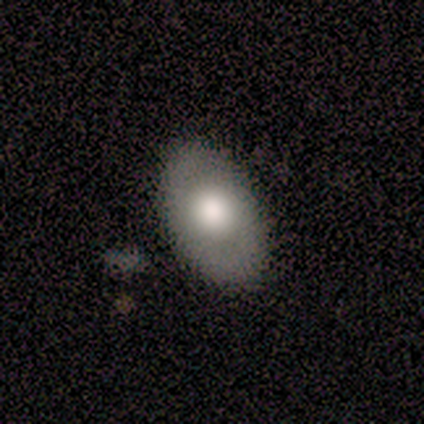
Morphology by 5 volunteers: Q: Smooth or featured?
A: smooth (80%); runner-up: featured or disk (20%)
Q: How rounded?
A: in between (75%); runner-up: round (25%)
Q: Merging?
A: none (100%)